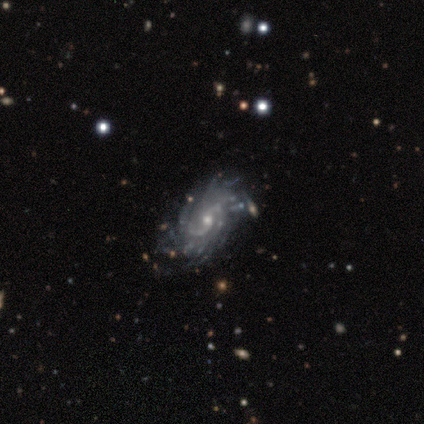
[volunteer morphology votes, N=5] Volunteers were most divided on "spiral winding": medium: 60%, tight: 40%, loose: 0%. More confident: smooth or featured — featured or disk (100%); edge-on disk — no (100%); spiral arms — yes (100%); merging — none (100%); bar — no (80%); spiral arm count — more than 4 (80%); bulge size — small (60%).